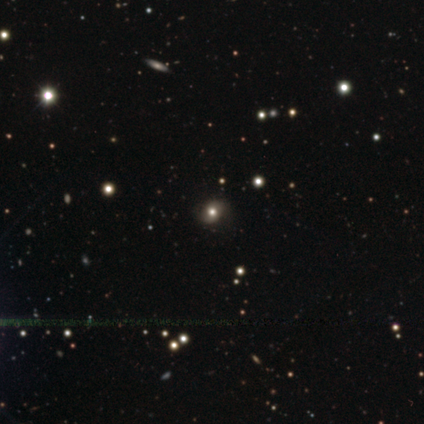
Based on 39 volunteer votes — Smooth or featured?
  - star or artifact: 38% *
  - smooth: 36%
  - featured or disk: 26%